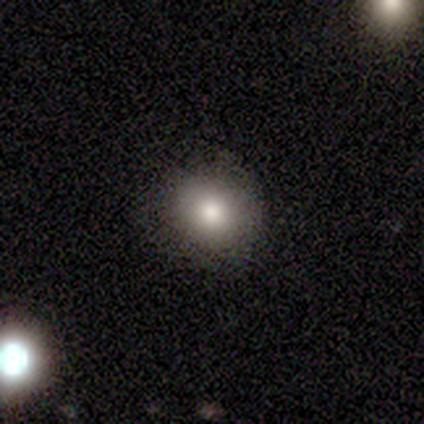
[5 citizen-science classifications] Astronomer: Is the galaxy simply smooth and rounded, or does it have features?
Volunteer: smooth — 80%.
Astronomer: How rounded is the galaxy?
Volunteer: round — 75%.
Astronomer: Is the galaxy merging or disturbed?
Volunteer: none — 80%.